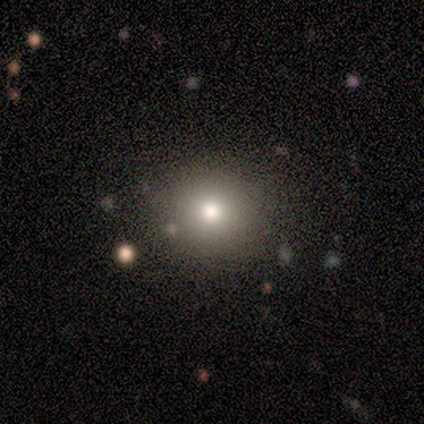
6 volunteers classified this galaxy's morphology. smooth 67%, featured or disk 17%, star or artifact 17%. Down the decision tree: how rounded — round (75%); merging — none (100%).